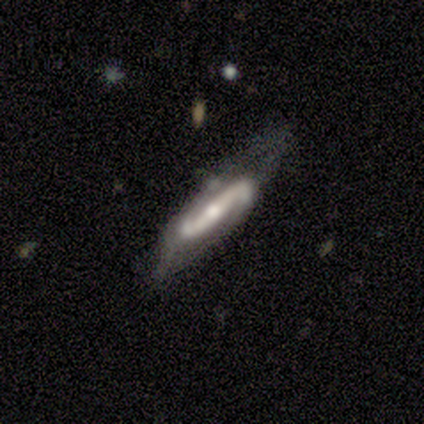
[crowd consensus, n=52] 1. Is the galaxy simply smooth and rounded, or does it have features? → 87% featured or disk, 13% smooth, 0% star or artifact.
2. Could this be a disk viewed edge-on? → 87% no, 13% yes.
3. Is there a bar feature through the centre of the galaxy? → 85% strong, 8% weak, 8% no.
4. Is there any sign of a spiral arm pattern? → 97% yes, 3% no.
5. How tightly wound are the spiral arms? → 47% loose, 26% tight, 26% medium.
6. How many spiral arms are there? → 95% 2, 5% 1, 0% 3, 0% 4, 0% more than 4, 0% can't tell.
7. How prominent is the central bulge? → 56% moderate, 31% small, 10% large, 3% none, 0% dominant.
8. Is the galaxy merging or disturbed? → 50% none, 25% minor disturbance, 21% major disturbance, 4% merger.